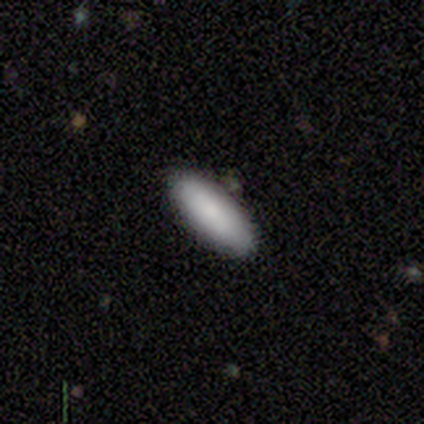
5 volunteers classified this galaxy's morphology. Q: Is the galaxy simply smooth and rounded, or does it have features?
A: smooth — 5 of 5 (100%).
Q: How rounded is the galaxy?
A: cigar-shaped — 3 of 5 (60%).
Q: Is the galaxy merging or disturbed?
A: none — 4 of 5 (80%).